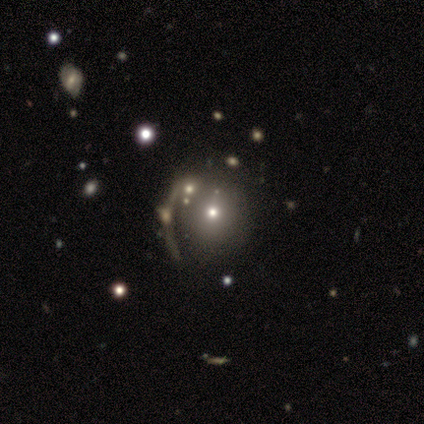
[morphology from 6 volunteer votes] This appears to be a smooth galaxy with no disk features (67%) that is round (75%). Merging: none (50%).